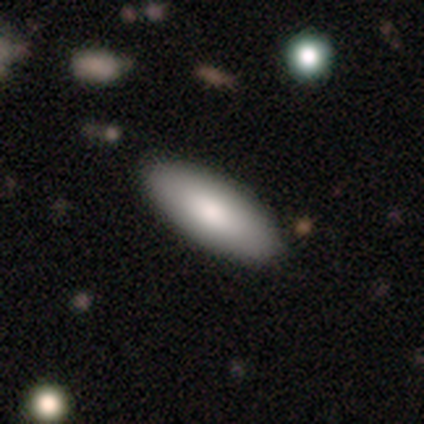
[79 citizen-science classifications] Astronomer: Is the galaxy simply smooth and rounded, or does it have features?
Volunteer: smooth — 84%.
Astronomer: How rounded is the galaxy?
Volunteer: in between — 89%.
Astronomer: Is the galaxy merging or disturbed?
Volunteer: none — 56%.